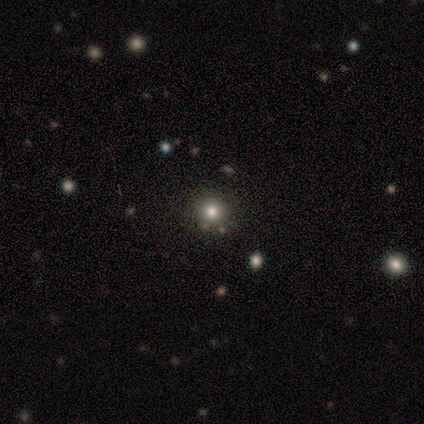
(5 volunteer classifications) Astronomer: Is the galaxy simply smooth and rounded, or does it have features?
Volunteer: smooth — 40%, tied with star or artifact at 40%.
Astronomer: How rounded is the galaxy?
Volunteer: round — 100%.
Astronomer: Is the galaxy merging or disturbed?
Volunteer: none — 67%.